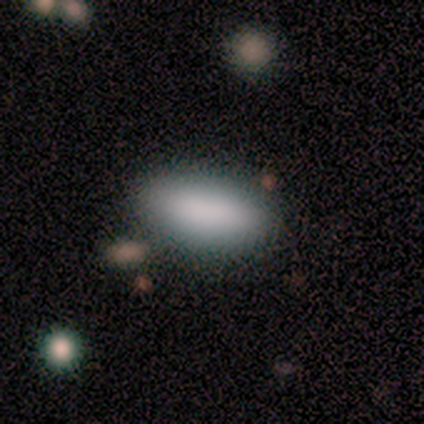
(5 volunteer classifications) A smooth galaxy with no disk features (80%) that is in between round and cigar-shaped (100%). Merging: none (100%).